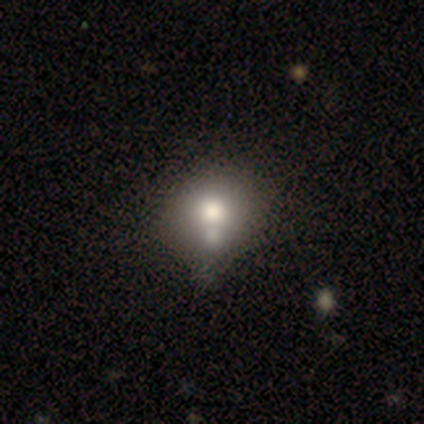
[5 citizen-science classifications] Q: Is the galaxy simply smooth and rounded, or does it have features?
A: smooth — 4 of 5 (80%).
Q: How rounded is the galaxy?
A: round — 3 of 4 (75%).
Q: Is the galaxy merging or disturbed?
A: none — 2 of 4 (50%, tied with merger).